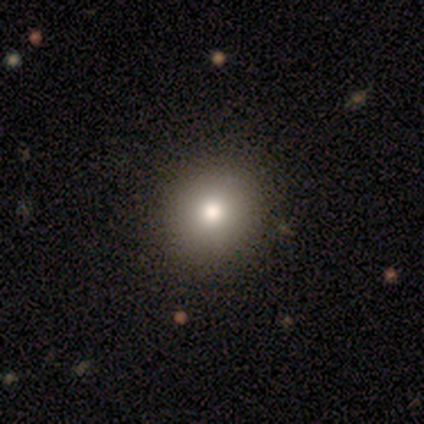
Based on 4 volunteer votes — smooth 75%, star or artifact 25%, featured or disk 0%. Down the decision tree: how rounded — round (100%); merging — none (100%).